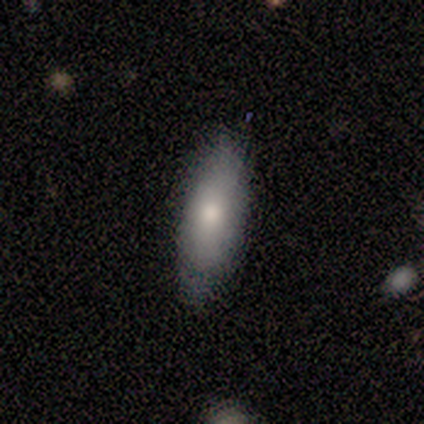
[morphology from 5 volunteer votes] Smooth or featured: smooth — 80% (featured or disk — 20%)
How rounded: in between — 75% (cigar-shaped — 25%)
Merging: none — 100%